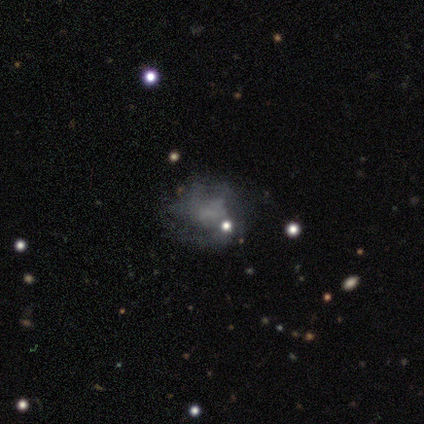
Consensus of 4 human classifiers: Volunteers were most divided on "smooth or featured" (2-way tie): smooth: 50%, featured or disk: 50%, star or artifact: 0%. More confident: how rounded — in between (100%); merging — none (75%).